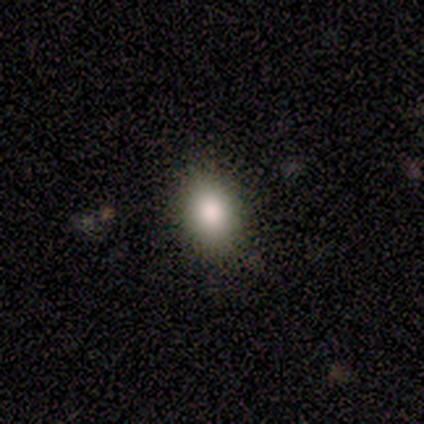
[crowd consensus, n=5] Smooth or featured?
  - smooth: 80% *
  - star or artifact: 20%
  - featured or disk: 0%
How rounded?
  - round: 75% *
  - in between: 25%
  - cigar-shaped: 0%
Merging?
  - none: 100% *
  - minor disturbance: 0%
  - major disturbance: 0%
  - merger: 0%